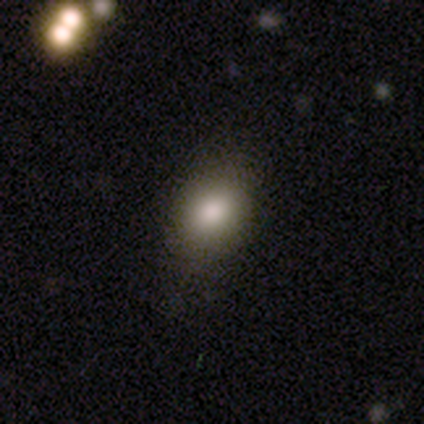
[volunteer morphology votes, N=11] type=smooth (64%); roundness=round (86%); merging=none (80%).